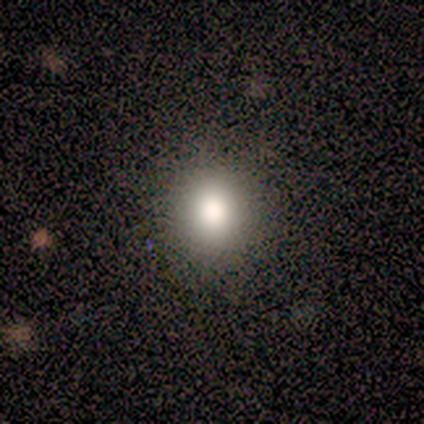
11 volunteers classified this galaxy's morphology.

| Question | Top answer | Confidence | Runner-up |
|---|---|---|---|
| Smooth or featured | smooth | 73% | star or artifact (18%) |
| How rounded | round | 75% | in between (25%) |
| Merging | none | 100% | — |